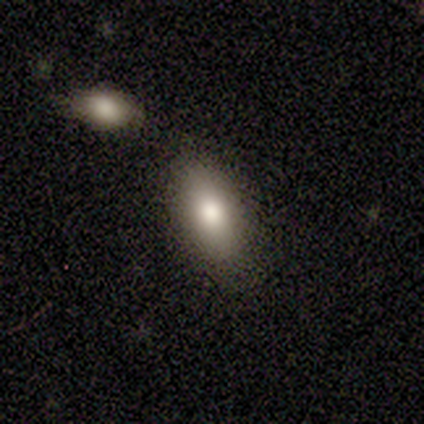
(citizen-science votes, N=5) Smooth or featured?
  - smooth: 80% *
  - star or artifact: 20%
  - featured or disk: 0%
How rounded?
  - in between: 100% *
  - round: 0%
  - cigar-shaped: 0%
Merging?
  - none: 100% *
  - minor disturbance: 0%
  - major disturbance: 0%
  - merger: 0%